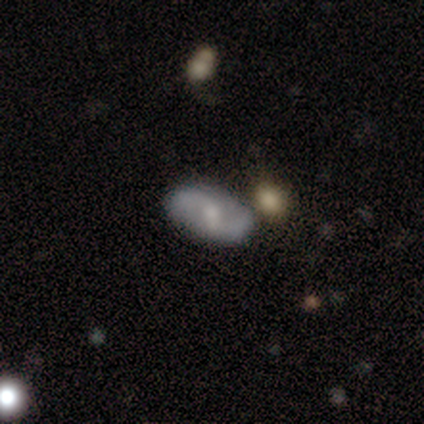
Morphology: type=featured or disk (80%); edge-on=no (100%); bar=no (75%); spiral arms=yes (100%); winding=tight (50%); arm count=2 (100%); bulge=small (75%); merging=none (60%).